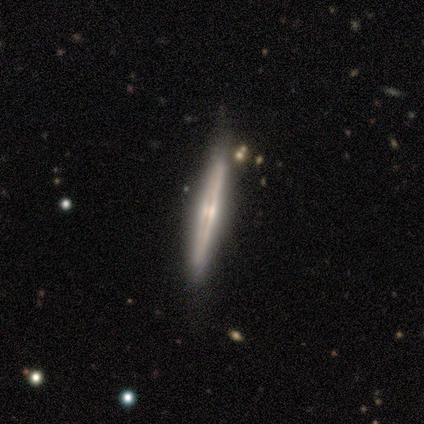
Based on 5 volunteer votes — smooth_or_featured: featured or disk (p=1.00)
disk_edge_on: yes (p=1.00)
edge_on_bulge: none (p=0.60) [alt: rounded p=0.40]
merging: none (p=1.00)